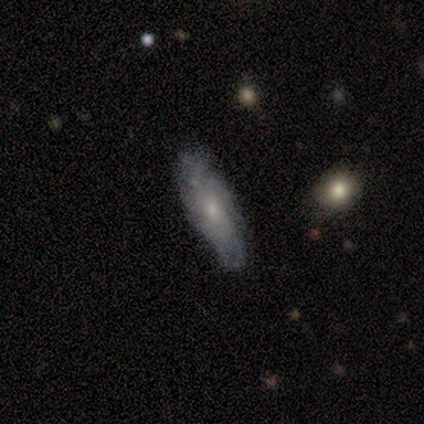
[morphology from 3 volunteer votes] Smooth or featured? 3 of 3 (100%) said smooth. How rounded? 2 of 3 (67%) said in between. Merging? 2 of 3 (67%) said none.